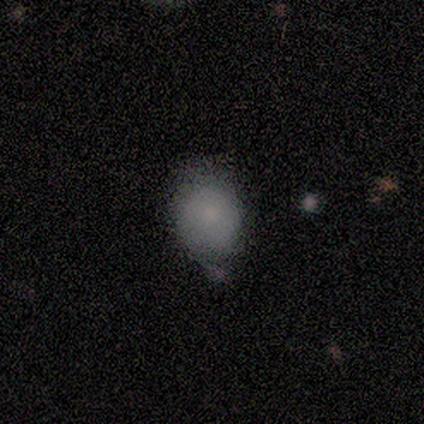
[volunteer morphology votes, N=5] This appears to be a smooth galaxy with no disk features (100%) that is in between round and cigar-shaped (60%). Merging: minor disturbance (100%).